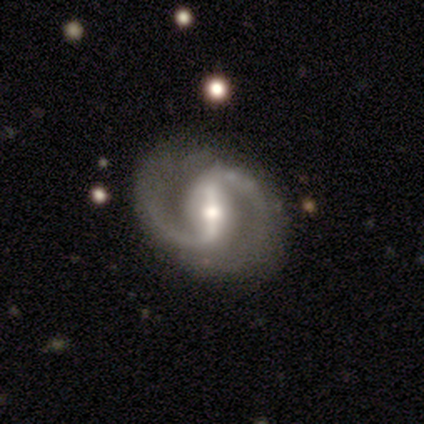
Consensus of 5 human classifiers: This is clearly a featured or disk galaxy (100%). It is clearly not viewed edge-on (100%). Bar: clearly strong (100%). Spiral arm pattern: clearly yes (100%). Spiral arm count: clearly 2 (100%). Spiral winding: marginally medium (40%, tied with loose). Central bulge: likely moderate (60%). Merging: clearly none (80%).